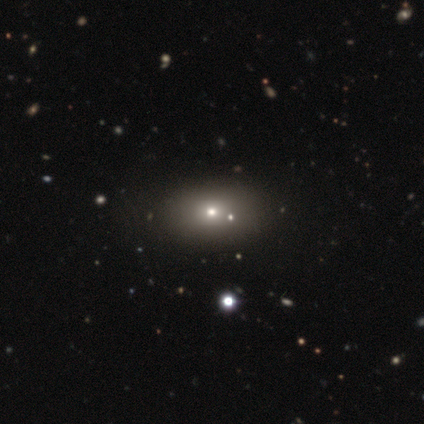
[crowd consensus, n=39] Volunteers were most divided on "smooth or featured": smooth: 64%, featured or disk: 18%, star or artifact: 18%. More confident: how rounded — in between (76%); merging — none (56%).